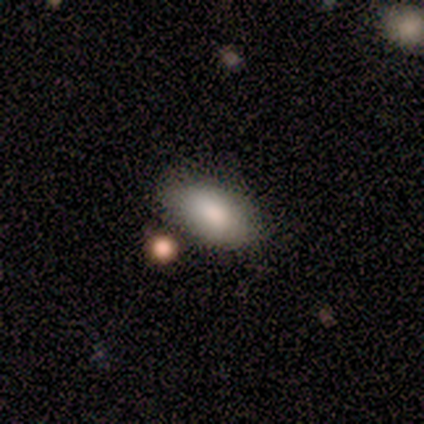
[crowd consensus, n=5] Morphology: type=smooth (100%); roundness=in between (100%); merging=minor disturbance (80%).